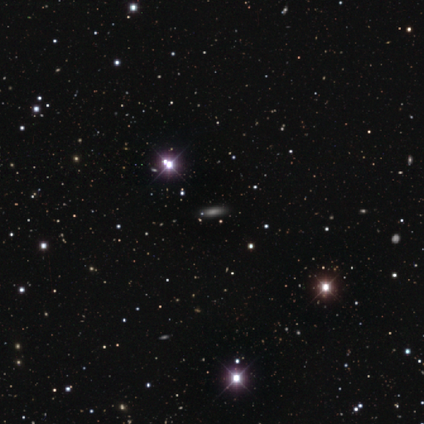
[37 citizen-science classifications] A smooth galaxy with no disk features (57%) that is cigar-shaped (52%).

Vote fractions:
- Smooth or featured? smooth: 57% / star or artifact: 38% / featured or disk: 5%
- How rounded? cigar-shaped: 52% / in between: 48% / round: 0%
- Merging? none: 91% / minor disturbance: 4% / major disturbance: 4% / merger: 0%